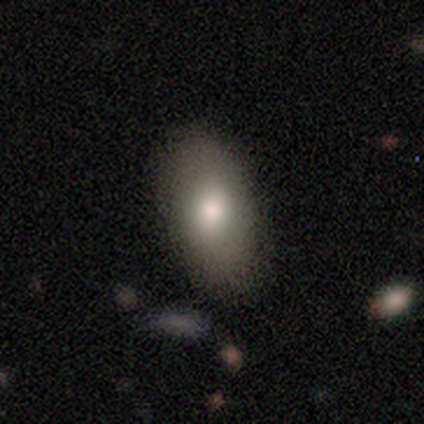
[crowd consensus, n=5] Smooth or featured? 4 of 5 (80%) said smooth. How rounded? 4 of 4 (100%) said in between. Merging? 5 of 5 (100%) said none.